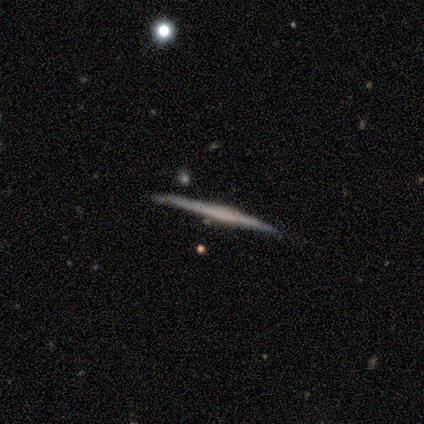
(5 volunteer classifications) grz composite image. It shows a smooth galaxy with no disk features (40%, tied with featured or disk) that is cigar-shaped (100%). Merging: none (100%).